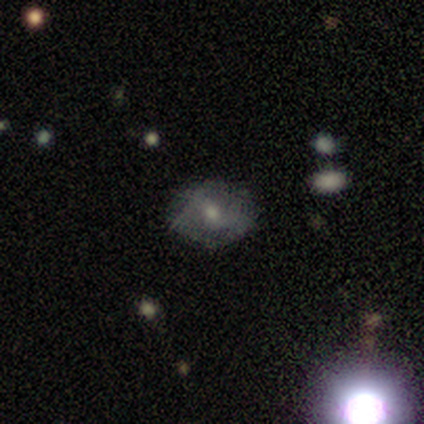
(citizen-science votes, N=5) Smooth or featured? smooth (60%)
How rounded? in between (67%)
Merging? none (75%)